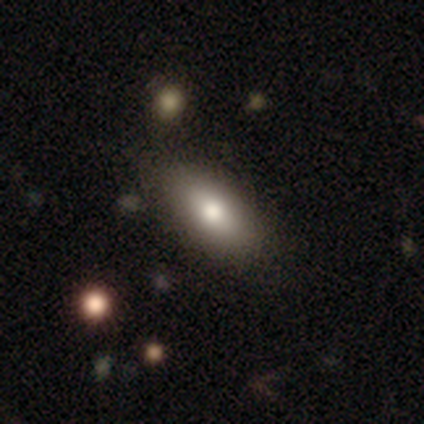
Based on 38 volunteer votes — smooth-or-featured: smooth: 79% | featured or disk: 11% | star or artifact: 11%
  how-rounded: in between: 87% | cigar-shaped: 10% | round: 3%
  merging: none: 68% | minor disturbance: 6% | major disturbance: 0% | merger: 0%